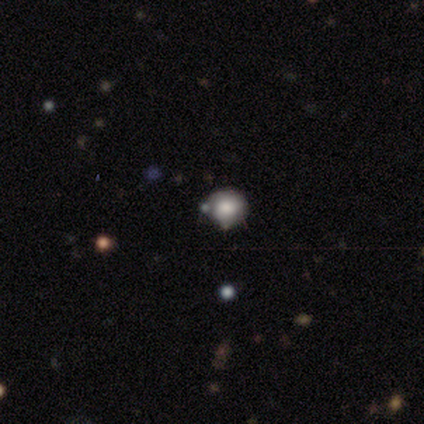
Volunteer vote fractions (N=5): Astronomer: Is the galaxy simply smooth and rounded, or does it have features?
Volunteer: smooth — 60% (runner-up: star or artifact, 40%).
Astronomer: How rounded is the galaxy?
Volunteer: round — 100%.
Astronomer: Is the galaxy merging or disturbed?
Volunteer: none — 100%.